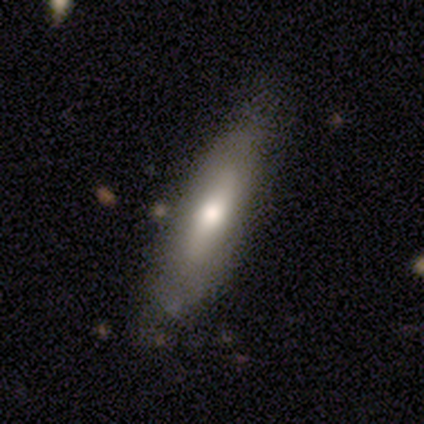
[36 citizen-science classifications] Smooth or featured?
  - smooth: 53% *
  - featured or disk: 44%
  - star or artifact: 3%
How rounded?
  - cigar-shaped: 63% *
  - in between: 37%
  - round: 0%
Merging?
  - none: 66% *
  - minor disturbance: 17%
  - major disturbance: 0%
  - merger: 0%